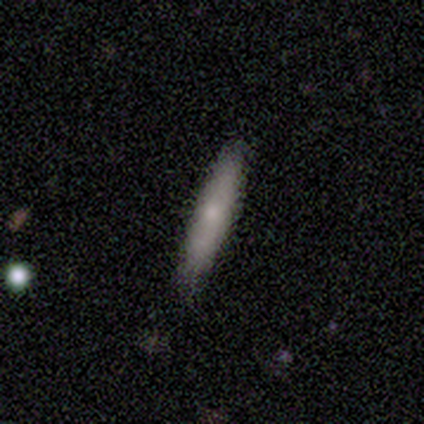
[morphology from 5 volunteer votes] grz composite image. It shows a smooth galaxy with no disk features (60%) that is cigar-shaped (100%). Merging: none (60%).